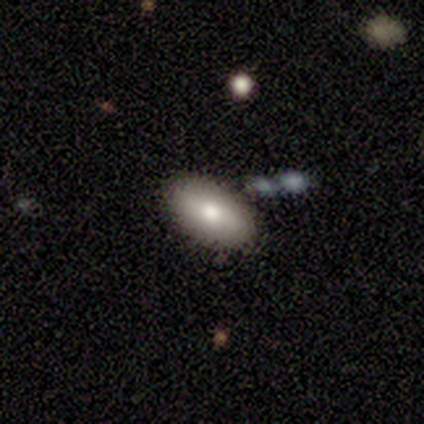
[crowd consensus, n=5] Morphology: type=smooth (100%); roundness=in between (80%); merging=none (80%).